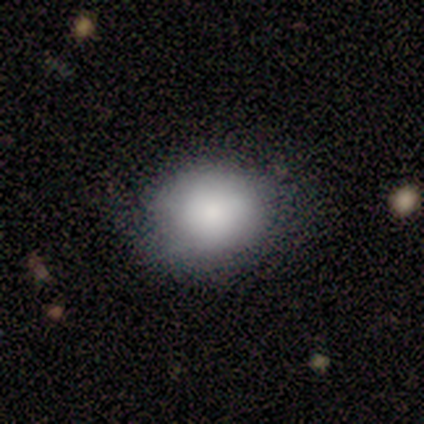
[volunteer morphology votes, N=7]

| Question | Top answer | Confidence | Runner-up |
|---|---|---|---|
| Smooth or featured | smooth | 86% | star or artifact (14%) |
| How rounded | round | 83% | in between (17%) |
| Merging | none | 83% | minor disturbance (17%) |